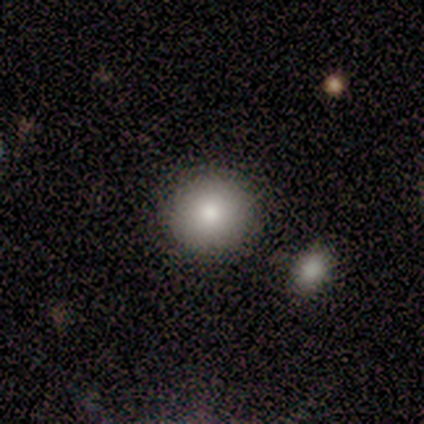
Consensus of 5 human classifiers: A smooth galaxy with no disk features (60%) that is round (100%).

Vote fractions:
- Smooth or featured? smooth: 60% / featured or disk: 20% / star or artifact: 20%
- How rounded? round: 100% / in between: 0% / cigar-shaped: 0%
- Merging? none: 75% / minor disturbance: 25% / major disturbance: 0% / merger: 0%